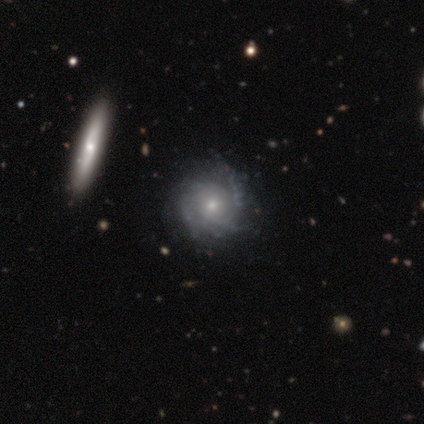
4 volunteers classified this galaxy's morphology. This appears to be a featured or disk galaxy (100%) with no bar (100%), 4 (50%) tight (50%, tied with medium) spiral arms (100%) and a moderate central bulge (50%, tied with small). Merging: none (100%).